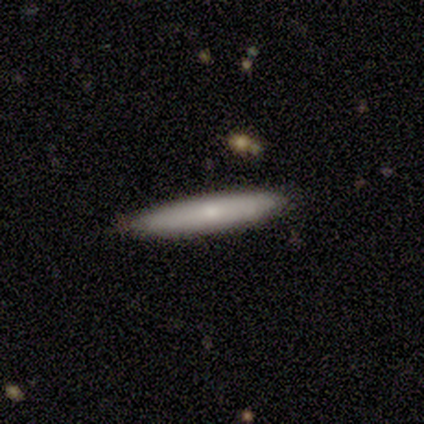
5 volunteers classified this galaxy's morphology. smooth_or_featured: smooth (p=0.80) [alt: star or artifact p=0.20]
how_rounded: cigar-shaped (p=1.00)
merging: none (p=0.75) [alt: merger p=0.25]